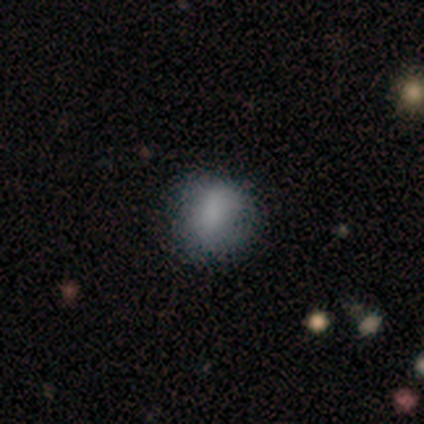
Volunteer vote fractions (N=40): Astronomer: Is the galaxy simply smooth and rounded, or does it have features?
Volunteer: smooth — 82%.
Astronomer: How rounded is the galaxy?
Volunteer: round — 67%.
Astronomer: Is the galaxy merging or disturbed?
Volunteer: none — 66%.